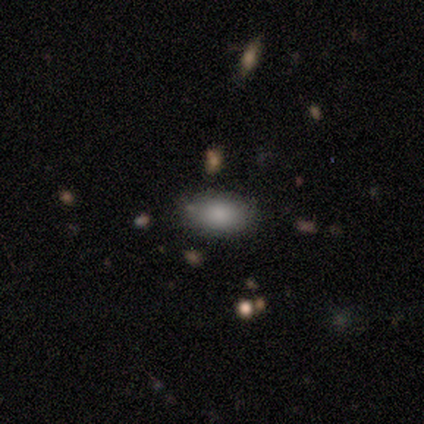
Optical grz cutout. It shows a smooth galaxy with no disk features (80%) that is in between round and cigar-shaped (100%). Merging: none (80%).